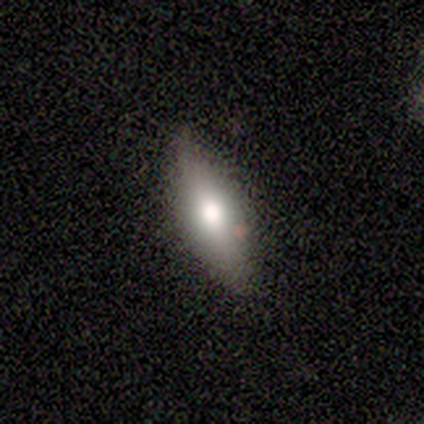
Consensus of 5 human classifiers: Smooth or featured? smooth (100%)
How rounded? in between (80%)
Merging? none (100%)